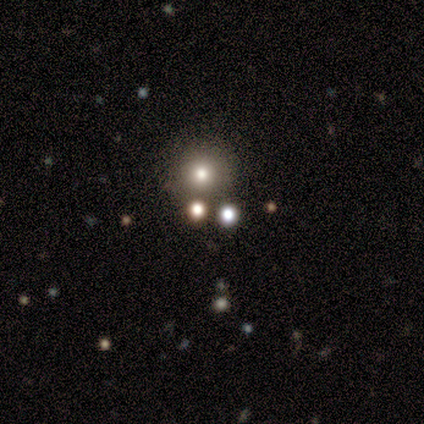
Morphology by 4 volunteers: Smooth or featured? 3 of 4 (75%) said smooth. How rounded? 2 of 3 (67%) said round. Merging? 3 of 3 (100%) said none.